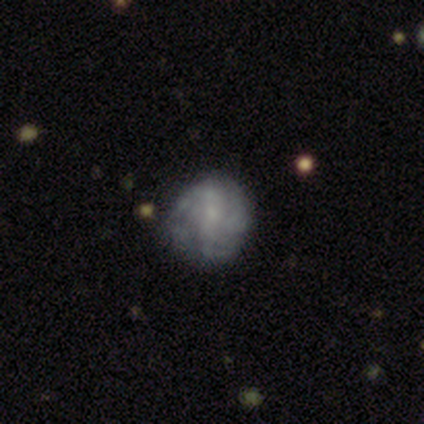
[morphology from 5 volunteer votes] Smooth or featured?
  - featured or disk: 80% *
  - star or artifact: 20%
  - smooth: 0%
Edge-on disk?
  - no: 100% *
  - yes: 0%
Bar?
  - no: 50% *
  - strong: 25%
  - weak: 25%
Spiral arms?
  - yes: 100% *
  - no: 0%
Spiral winding?
  - tight: 50% *
  - medium: 25%
  - loose: 25%
Spiral arm count?
  - can't tell: 50% *
  - 2: 25%
  - more than 4: 25%
  - 1: 0%
  - 3: 0%
  - 4: 0%
Bulge size?
  - small: 50% *
  - dominant: 25%
  - none: 25%
  - large: 0%
  - moderate: 0%
Merging?
  - minor disturbance: 50% *
  - none: 25%
  - major disturbance: 25%
  - merger: 0%